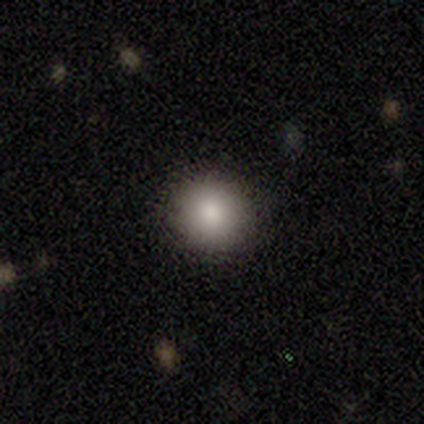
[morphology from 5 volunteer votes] A smooth galaxy with no disk features (60%) that is round (100%).

Vote fractions:
- Smooth or featured? smooth: 60% / featured or disk: 20% / star or artifact: 20%
- How rounded? round: 100% / in between: 0% / cigar-shaped: 0%
- Merging? none: 100% / minor disturbance: 0% / major disturbance: 0% / merger: 0%